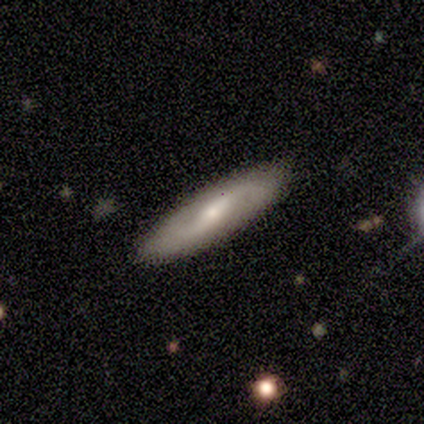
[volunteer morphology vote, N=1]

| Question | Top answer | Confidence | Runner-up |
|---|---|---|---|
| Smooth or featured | smooth | 100% | — |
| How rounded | cigar-shaped | 100% | — |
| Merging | none | 100% | — |